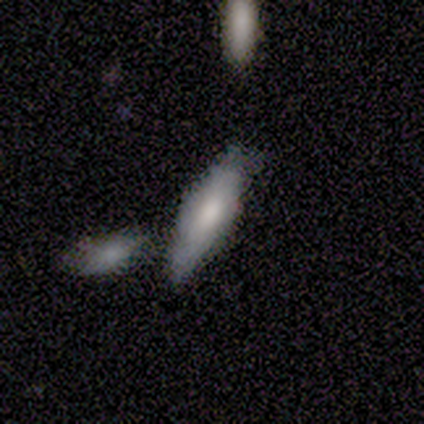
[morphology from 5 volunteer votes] Overall: featured or disk (60%; smooth 40%). Edge-on disk: yes (67%; no 33%). Edge-on bulge: none (50%, tied with rounded). Merging: none (40%, tied with merger).